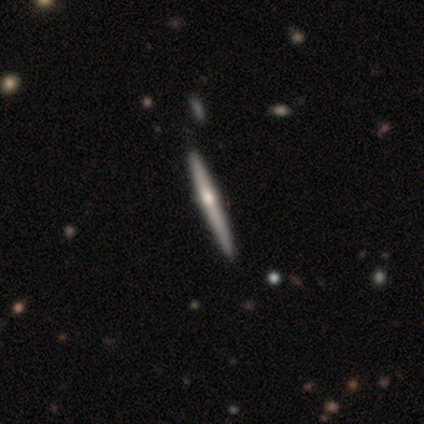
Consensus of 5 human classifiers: A featured or disk galaxy (80%) viewed edge-on (100%) with a rounded central bulge (100%).

Vote fractions:
- Smooth or featured? featured or disk: 80% / star or artifact: 20% / smooth: 0%
- Edge-on disk? yes: 100% / no: 0%
- Edge-on bulge? rounded: 100% / boxy: 0% / none: 0%
- Merging? none: 100% / minor disturbance: 0% / major disturbance: 0% / merger: 0%